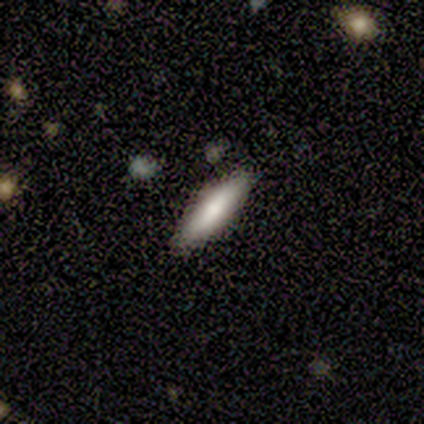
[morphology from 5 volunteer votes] Smooth or featured?
  - smooth: 40% * (tied)
  - featured or disk: 40% * (tied)
  - star or artifact: 20%
How rounded?
  - round: 50% * (tied)
  - cigar-shaped: 50% * (tied)
  - in between: 0%
Merging?
  - none: 75% *
  - minor disturbance: 25%
  - major disturbance: 0%
  - merger: 0%